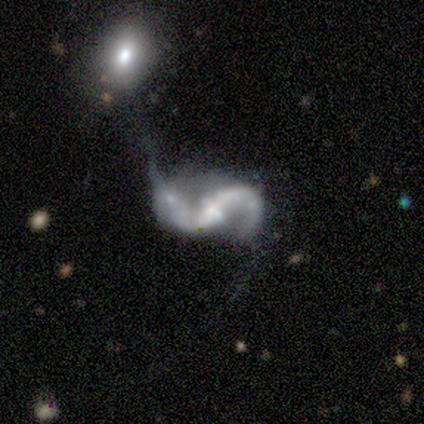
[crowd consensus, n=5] This appears to be a featured or disk galaxy (100%) with a weak bar (80%), 2 (100%) loose (100%) spiral arms (100%) and a small central bulge (40%, tied with none). Merging: none (40%).